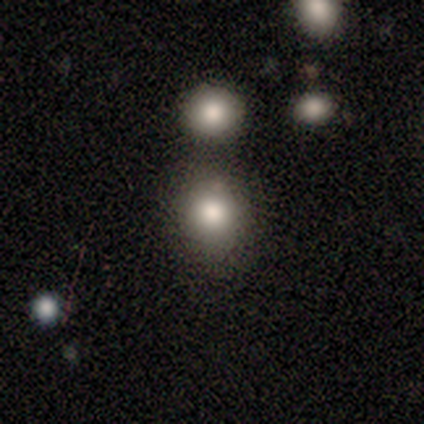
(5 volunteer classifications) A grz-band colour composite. It shows a smooth galaxy with no disk features (80%) that is round (75%). Merging: none (100%).